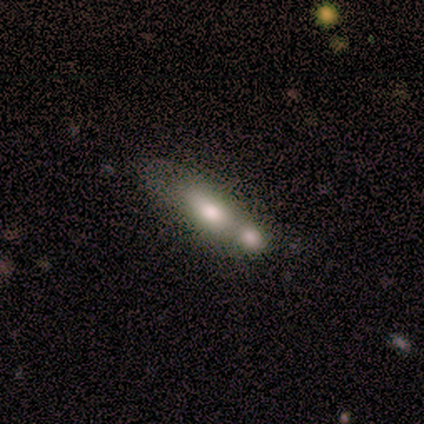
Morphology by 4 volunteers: Smooth or featured?
  - smooth: 75% *
  - featured or disk: 25%
  - star or artifact: 0%
How rounded?
  - in between: 100% *
  - round: 0%
  - cigar-shaped: 0%
Merging?
  - merger: 50% *
  - none: 25%
  - minor disturbance: 25%
  - major disturbance: 0%